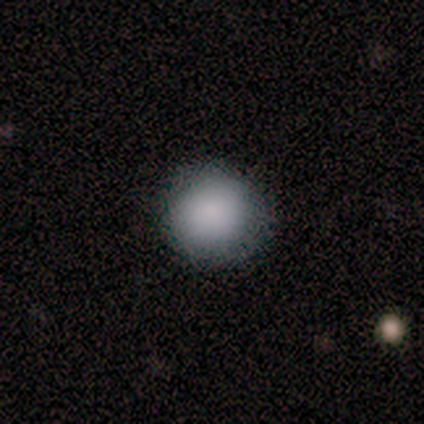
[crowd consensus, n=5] Q: Smooth or featured?
A: smooth (100%)
Q: How rounded?
A: round (100%)
Q: Merging?
A: none (80%); runner-up: minor disturbance (20%)